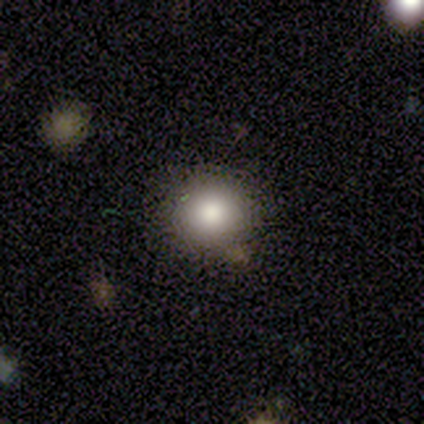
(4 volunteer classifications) smooth 75%, star or artifact 25%, featured or disk 0%. Down the decision tree: how rounded — round (100%); merging — none (100%).